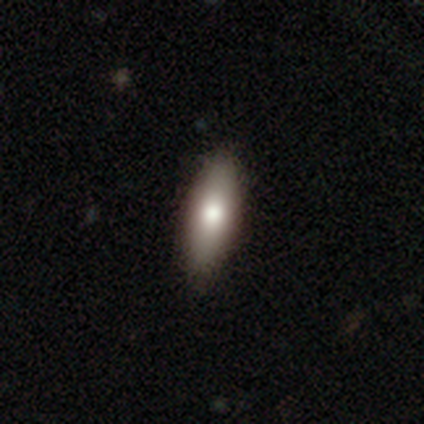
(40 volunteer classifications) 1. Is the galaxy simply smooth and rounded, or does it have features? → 75% smooth, 20% featured or disk, 5% star or artifact.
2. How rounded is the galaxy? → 70% in between, 30% cigar-shaped, 0% round.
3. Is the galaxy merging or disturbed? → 79% none, 3% minor disturbance, 0% major disturbance, 0% merger.